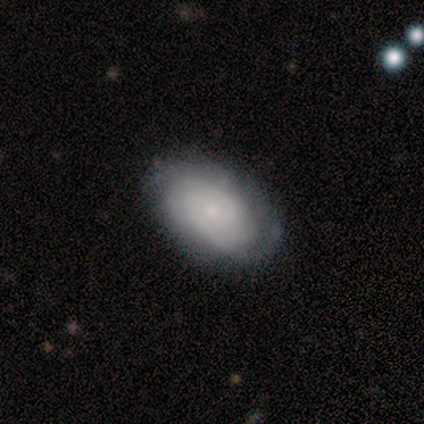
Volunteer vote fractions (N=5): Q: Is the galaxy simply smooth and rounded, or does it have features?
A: featured or disk — 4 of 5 (80%).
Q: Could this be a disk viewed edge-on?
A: no — 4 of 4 (100%).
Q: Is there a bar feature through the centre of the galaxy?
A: no — 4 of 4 (100%).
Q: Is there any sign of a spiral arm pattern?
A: yes — 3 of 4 (75%).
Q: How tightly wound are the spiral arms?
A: tight — 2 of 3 (67%).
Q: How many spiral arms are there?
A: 2 — 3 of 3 (100%).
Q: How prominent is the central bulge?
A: small — 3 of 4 (75%).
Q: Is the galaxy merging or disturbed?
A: none — 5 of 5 (100%).